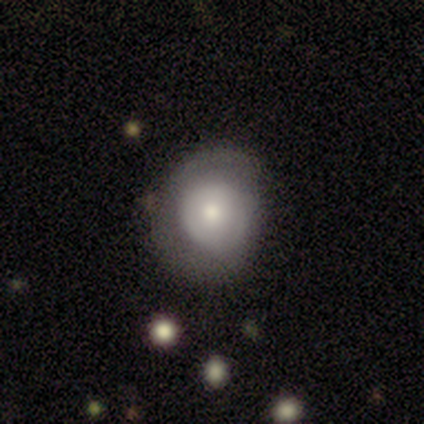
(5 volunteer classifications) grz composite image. It shows a smooth galaxy with no disk features (60%) that is round (100%). Merging: none (75%).